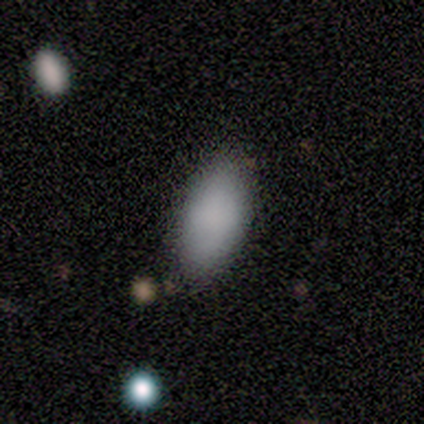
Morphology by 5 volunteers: This appears to be a smooth galaxy with no disk features (80%) that is in between round and cigar-shaped (100%). Merging: none (100%).